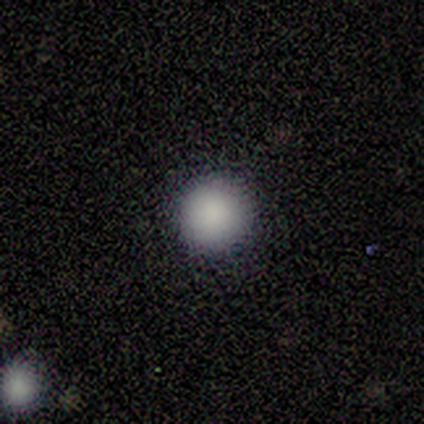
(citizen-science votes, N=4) Smooth or featured? smooth (100%)
How rounded? round (75%)
Merging? none (100%)